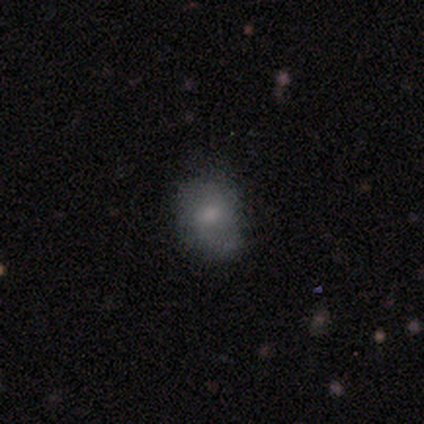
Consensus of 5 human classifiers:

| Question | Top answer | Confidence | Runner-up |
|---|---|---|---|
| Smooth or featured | smooth | 100% | — |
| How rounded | in between | 60% | round (40%) |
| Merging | none | 80% | minor disturbance (20%) |